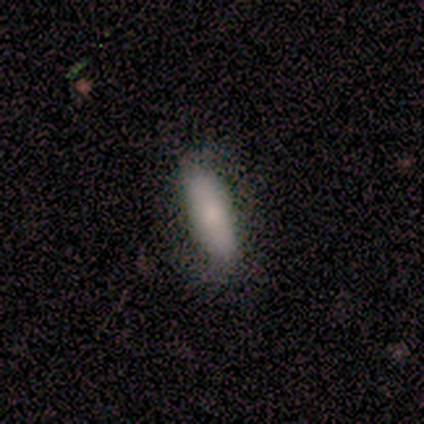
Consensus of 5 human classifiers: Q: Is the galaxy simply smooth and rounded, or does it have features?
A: smooth — 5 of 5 (100%).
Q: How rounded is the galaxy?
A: in between — 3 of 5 (60%).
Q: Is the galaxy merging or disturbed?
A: none — 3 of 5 (60%).